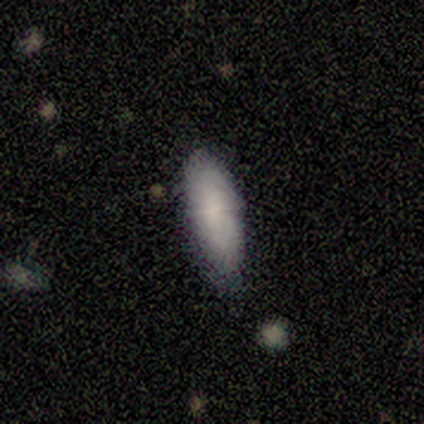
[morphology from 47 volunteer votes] This appears to be a smooth galaxy with no disk features (87%) that is in between round and cigar-shaped (83%). Merging: none (66%).